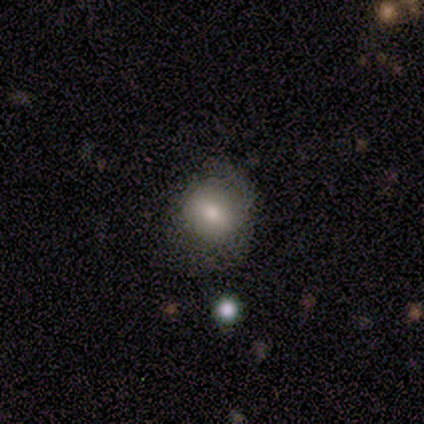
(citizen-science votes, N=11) Overall: smooth (91%). How rounded: round (60%; in between 40%). Merging: none (73%).